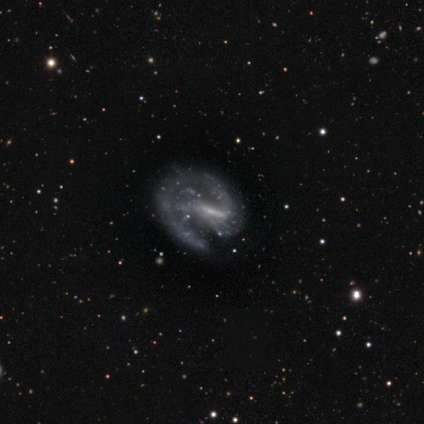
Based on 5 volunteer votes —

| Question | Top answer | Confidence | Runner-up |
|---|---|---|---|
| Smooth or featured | featured or disk | 100% | — |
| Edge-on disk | no | 100% | — |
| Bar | strong | 60% | weak (40%) |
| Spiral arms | yes | 100% | — |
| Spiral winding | medium | 80% | loose (20%) |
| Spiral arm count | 1 | 80% | 2 (20%) |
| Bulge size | small | 60% | moderate (20%) |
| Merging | minor disturbance | 60% | none (40%) |